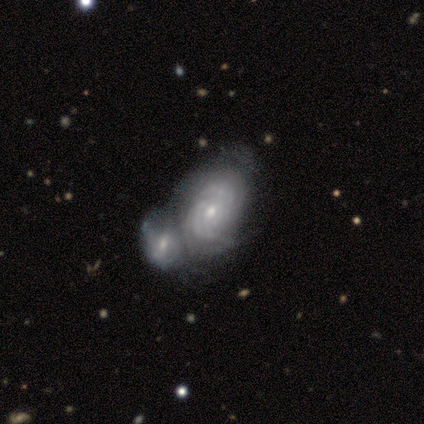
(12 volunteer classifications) Morphology: type=featured or disk (67%); edge-on=no (100%); bar=no (75%); spiral arms=yes (100%); winding=tight (88%); arm count=can't tell (75%); bulge=small (62%); merging=merger (70%).